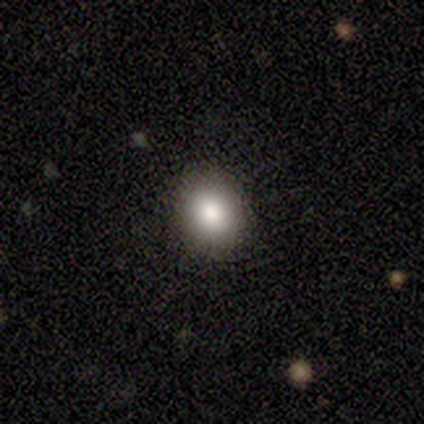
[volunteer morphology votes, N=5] Q: Smooth or featured?
A: smooth (80%); runner-up: star or artifact (20%)
Q: How rounded?
A: round (75%); runner-up: in between (25%)
Q: Merging?
A: none (100%)